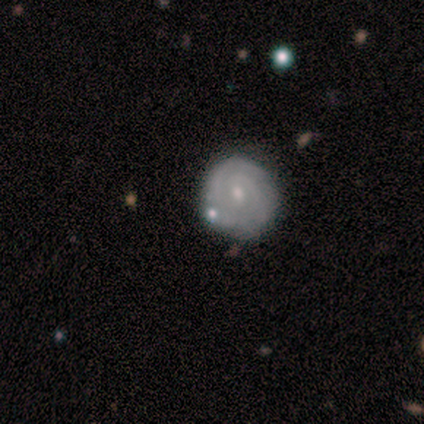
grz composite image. It shows a featured or disk galaxy (80%) with no bar (75%), tight (100%) spiral arms (100%) and a small central bulge (75%). Merging: none (100%).